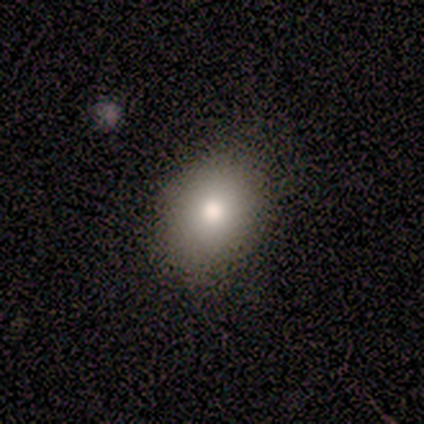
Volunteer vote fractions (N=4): Smooth or featured? 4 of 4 (100%) said smooth. How rounded? 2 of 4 (50%, tied with in between) said round. Merging? 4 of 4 (100%) said none.